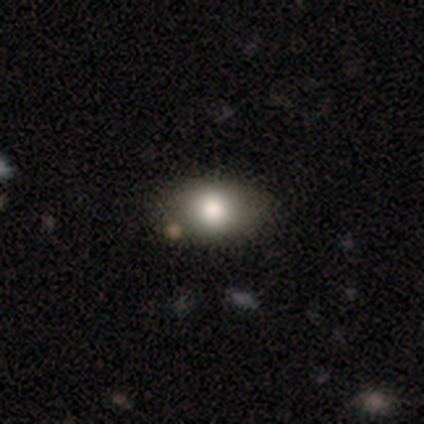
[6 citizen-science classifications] Smooth or featured?
  - smooth: 67% *
  - featured or disk: 33%
  - star or artifact: 0%
How rounded?
  - round: 50% * (tied)
  - in between: 50% * (tied)
  - cigar-shaped: 0%
Merging?
  - none: 67% *
  - major disturbance: 17%
  - merger: 17%
  - minor disturbance: 0%